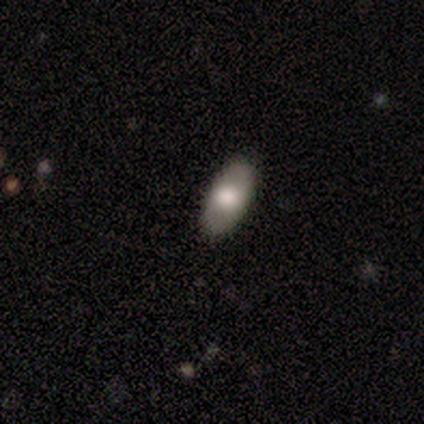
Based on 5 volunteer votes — Morphology: type=smooth (80%); roundness=in between (50%, tied with cigar-shaped); merging=none (80%).